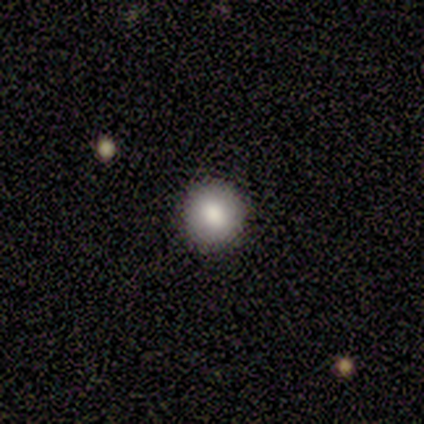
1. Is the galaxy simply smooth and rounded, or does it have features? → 100% smooth, 0% featured or disk, 0% star or artifact.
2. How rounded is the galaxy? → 100% round, 0% in between, 0% cigar-shaped.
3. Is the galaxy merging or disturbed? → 80% none, 20% minor disturbance, 0% major disturbance, 0% merger.